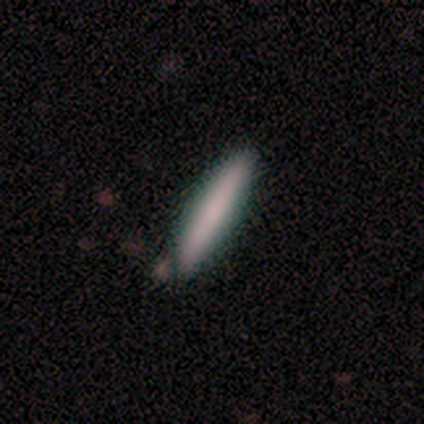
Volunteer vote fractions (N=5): This appears to be a smooth galaxy with no disk features (100%) that is cigar-shaped (100%). Merging: none (100%).